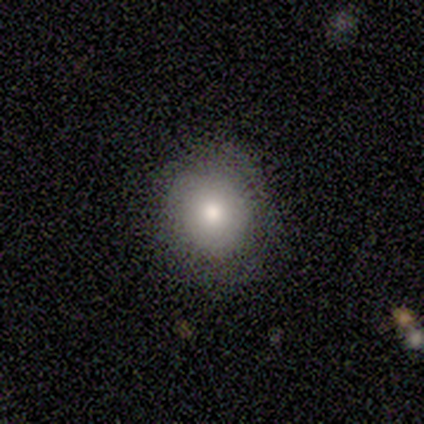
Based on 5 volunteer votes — Volunteers were most divided on "smooth or featured": smooth: 60%, featured or disk: 20%, star or artifact: 20%. More confident: how rounded — round (100%); merging — none (100%).